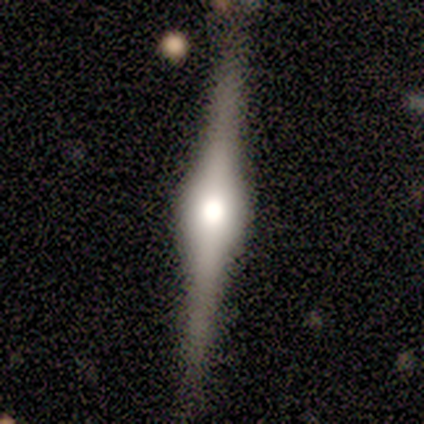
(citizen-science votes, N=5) Smooth or featured? featured or disk (100%)
Edge-on disk? yes (100%)
Edge-on bulge? rounded (100%)
Merging? none (80%)